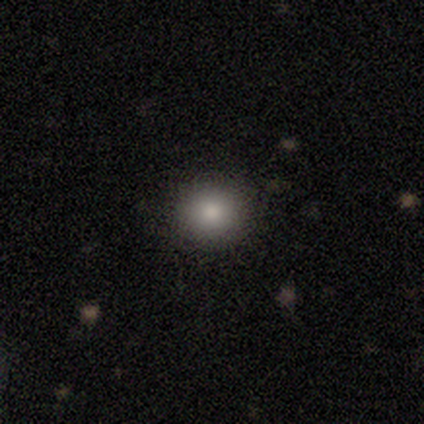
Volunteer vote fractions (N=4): Morphology: type=smooth (75%); roundness=round (100%); merging=none (100%).